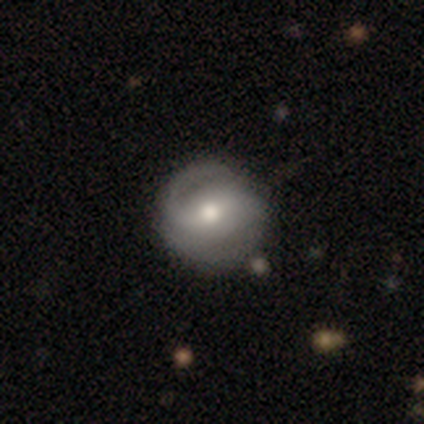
This is clearly a featured or disk galaxy (83%). It is clearly not viewed edge-on (100%). Bar: likely strong (60%). Spiral arm pattern: clearly yes (100%). Spiral arm count: likely 2 (60%). Spiral winding: likely medium (60%). Central bulge: clearly moderate (80%). Merging: possibly none (50%, tied with minor disturbance).